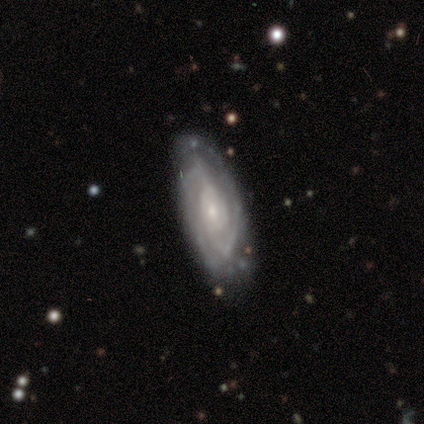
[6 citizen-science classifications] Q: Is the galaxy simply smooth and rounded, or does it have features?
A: featured or disk — 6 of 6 (100%).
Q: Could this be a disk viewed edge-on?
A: no — 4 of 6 (67%).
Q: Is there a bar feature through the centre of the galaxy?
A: no — 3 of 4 (75%).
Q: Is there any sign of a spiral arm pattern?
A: yes — 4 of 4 (100%).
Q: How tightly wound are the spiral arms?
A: tight — 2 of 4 (50%).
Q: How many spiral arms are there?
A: can't tell — 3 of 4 (75%).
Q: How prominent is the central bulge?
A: small — 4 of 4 (100%).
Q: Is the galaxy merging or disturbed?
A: none — 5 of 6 (83%).